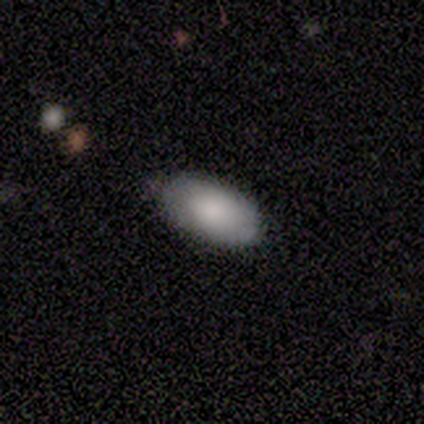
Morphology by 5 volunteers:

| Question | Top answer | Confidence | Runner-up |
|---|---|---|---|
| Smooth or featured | smooth | 80% | featured or disk (20%) |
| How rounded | in between | 75% | round (25%) |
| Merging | none | 80% | minor disturbance (20%) |